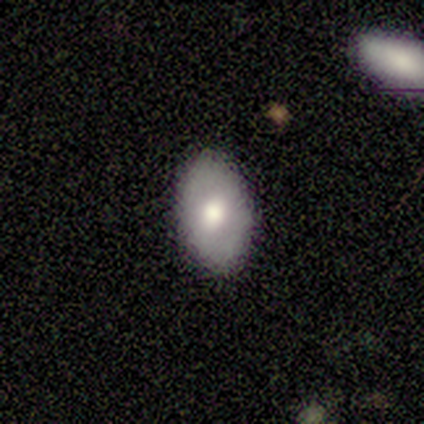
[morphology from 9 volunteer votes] This appears to be a smooth galaxy with no disk features (78%) that is in between round and cigar-shaped (86%). Merging: none (89%).